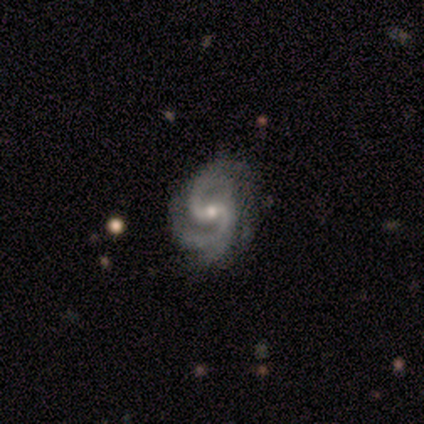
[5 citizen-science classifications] A featured or disk galaxy (100%) with a weak bar (100%), 2 (100%) medium (80%) spiral arms (100%) and a small central bulge (80%).

Vote fractions:
- Smooth or featured? featured or disk: 100% / smooth: 0% / star or artifact: 0%
- Edge-on disk? no: 100% / yes: 0%
- Bar? weak: 100% / strong: 0% / no: 0%
- Spiral arms? yes: 100% / no: 0%
- Spiral winding? medium: 80% / tight: 20% / loose: 0%
- Spiral arm count? 2: 100% / 1: 0% / 3: 0% / 4: 0% / more than 4: 0% / can't tell: 0%
- Bulge size? small: 80% / moderate: 20% / dominant: 0% / large: 0% / none: 0%
- Merging? none: 80% / minor disturbance: 20% / major disturbance: 0% / merger: 0%